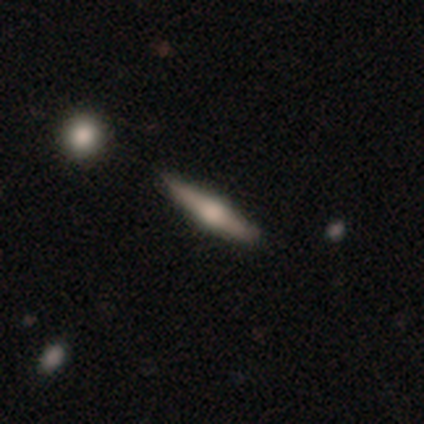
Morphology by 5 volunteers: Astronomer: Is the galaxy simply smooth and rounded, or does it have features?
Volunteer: featured or disk — 80%.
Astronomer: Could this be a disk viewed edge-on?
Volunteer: yes — 100%.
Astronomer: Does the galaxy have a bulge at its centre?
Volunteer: rounded — 100%.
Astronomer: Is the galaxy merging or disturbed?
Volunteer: none — 60%.